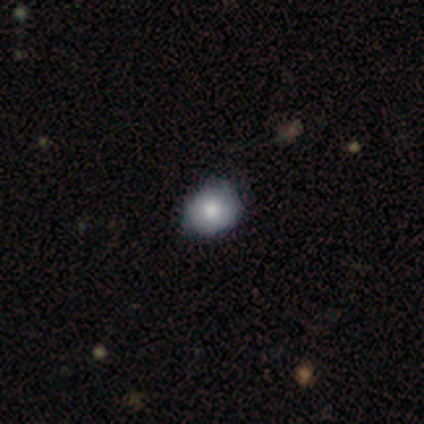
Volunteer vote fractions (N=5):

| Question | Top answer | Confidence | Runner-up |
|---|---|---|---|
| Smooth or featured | smooth | 100% | — |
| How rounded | round | 80% | in between (20%) |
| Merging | none | 80% | minor disturbance (20%) |